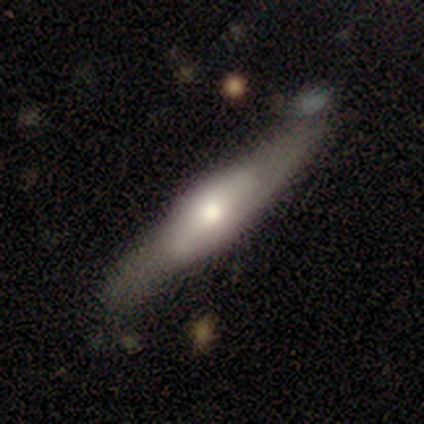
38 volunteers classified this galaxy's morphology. A featured or disk galaxy (53%) viewed edge-on (85%) with a rounded central bulge (76%). Merging: none (66%).